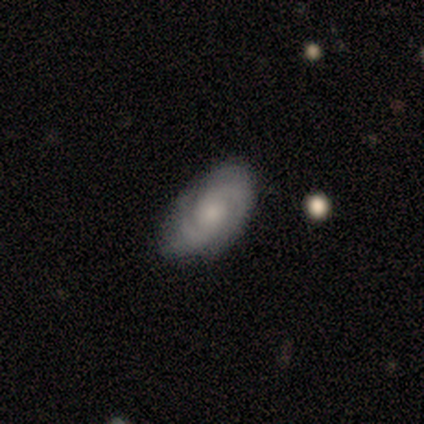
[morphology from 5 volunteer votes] smooth_or_featured: featured or disk (p=0.80) [alt: smooth p=0.20]
disk_edge_on: no (p=1.00)
bar: no (p=0.75) [alt: weak p=0.25]
has_spiral_arms: yes (p=1.00)
spiral_winding: tight (p=0.75) [alt: medium p=0.25]
spiral_arm_count: 2 (p=1.00)
bulge_size: moderate (p=0.50) [tied with: small p=0.50]
merging: none (p=0.60) [alt: minor disturbance p=0.40]